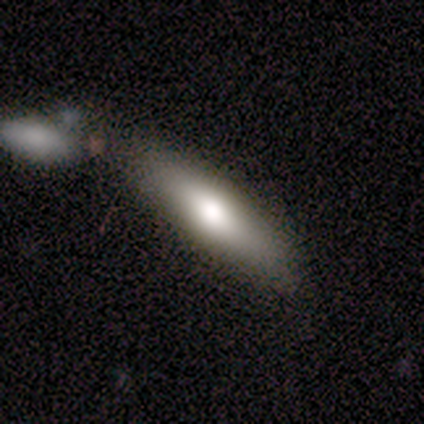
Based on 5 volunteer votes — Volunteers were most divided on "merging": none: 60%, major disturbance: 40%, minor disturbance: 0%, merger: 0%. More confident: smooth or featured — smooth (100%); how rounded — cigar-shaped (100%).